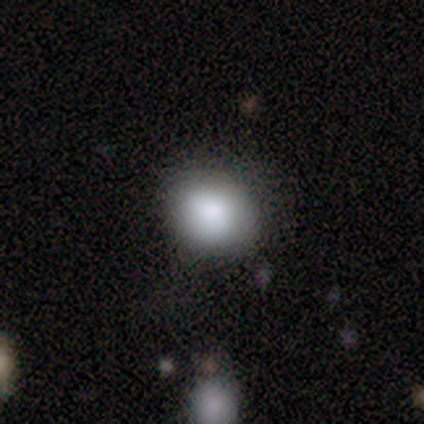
This appears to be a smooth galaxy with no disk features (100%) that is round (75%). Merging: none (100%).